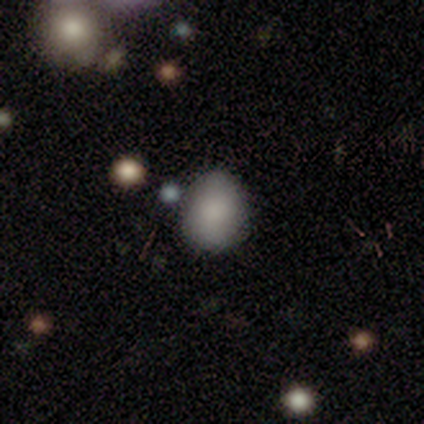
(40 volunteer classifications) Smooth or featured? 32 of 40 (80%) said smooth. How rounded? 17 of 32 (53%) said round. Merging? 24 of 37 (65%) said none.